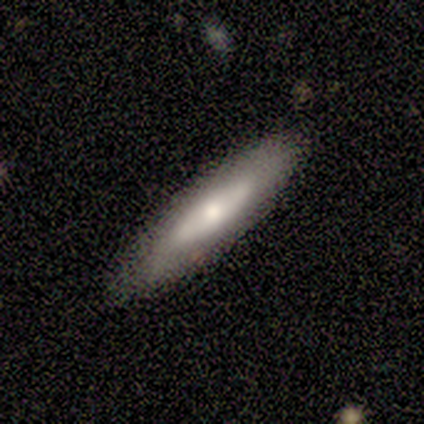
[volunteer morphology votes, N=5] This appears to be a featured or disk galaxy (60%) viewed edge-on (100%) with a rounded central bulge (100%). Merging: none (80%).